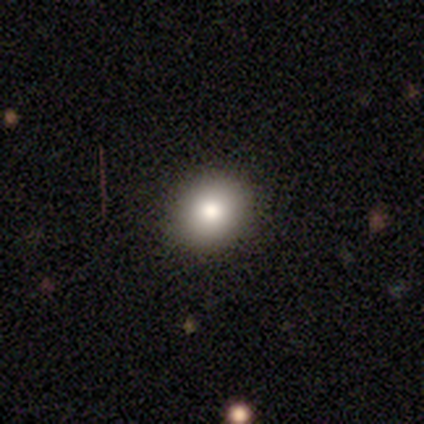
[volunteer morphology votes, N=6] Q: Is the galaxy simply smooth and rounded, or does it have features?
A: smooth — 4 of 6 (67%).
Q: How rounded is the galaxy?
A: round — 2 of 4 (50%, tied with in between).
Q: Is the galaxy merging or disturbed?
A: none — 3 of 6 (50%, tied with minor disturbance).